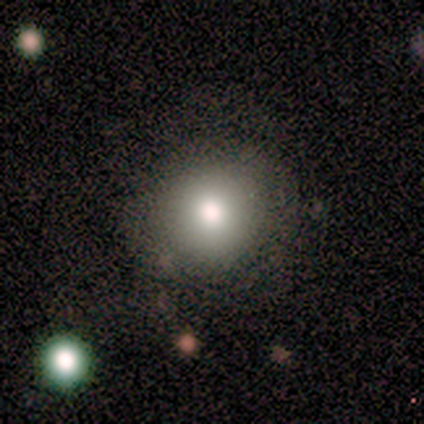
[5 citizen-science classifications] Smooth or featured: smooth — 60% (featured or disk — 40%)
How rounded: round — 100%
Merging: none — 80% (major disturbance — 20%)